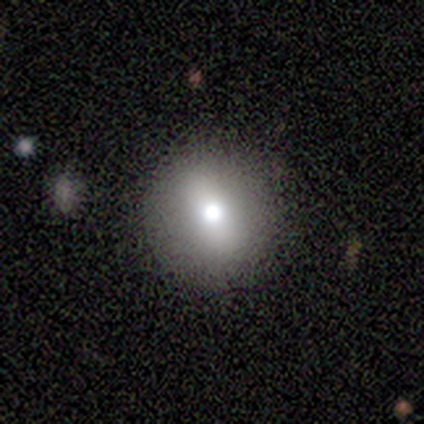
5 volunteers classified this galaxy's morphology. This appears to be a smooth galaxy with no disk features (60%) that is round (67%). Merging: none (50%, tied with minor disturbance).